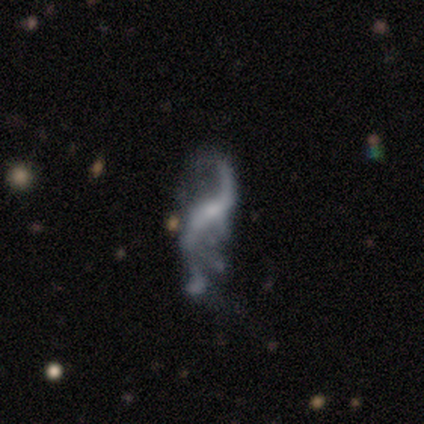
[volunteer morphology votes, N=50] A featured or disk galaxy (88%) with no bar (43%), 2 (87%) loose (92%) spiral arms (89%) and a small central bulge (68%).

Vote fractions:
- Smooth or featured? featured or disk: 88% / smooth: 6% / star or artifact: 6%
- Edge-on disk? no: 100% / yes: 0%
- Bar? no: 43% / weak: 36% / strong: 20%
- Spiral arms? yes: 89% / no: 11%
- Spiral winding? loose: 92% / medium: 8% / tight: 0%
- Spiral arm count? 2: 87% / can't tell: 8% / 1: 5% / 3: 0% / 4: 0% / more than 4: 0%
- Bulge size? small: 68% / none: 20% / moderate: 11% / dominant: 0% / large: 0%
- Merging? major disturbance: 34% / none: 28% / minor disturbance: 23% / merger: 15%